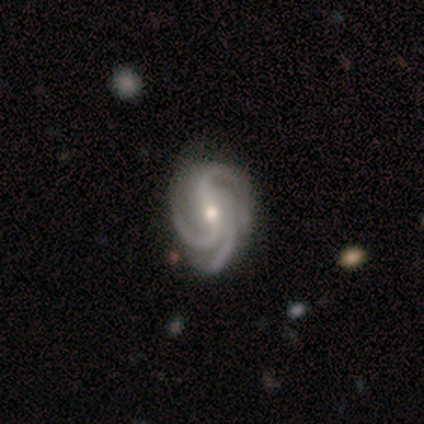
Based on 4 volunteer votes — smooth-or-featured: featured or disk: 100% | smooth: 0% | star or artifact: 0%
  disk-edge-on: no: 100% | yes: 0%
    bar: no: 50% | strong: 25% | weak: 25%
    has-spiral-arms: yes: 100% | no: 0%
      spiral-winding: tight: 75% | loose: 25% | medium: 0%
      spiral-arm-count: 3: 100% | 1: 0% | 2: 0% | 4: 0% | more than 4: 0% | can't tell: 0%
    bulge-size: moderate: 100% | dominant: 0% | large: 0% | small: 0% | none: 0%
  merging: none: 100% | minor disturbance: 0% | major disturbance: 0% | merger: 0%